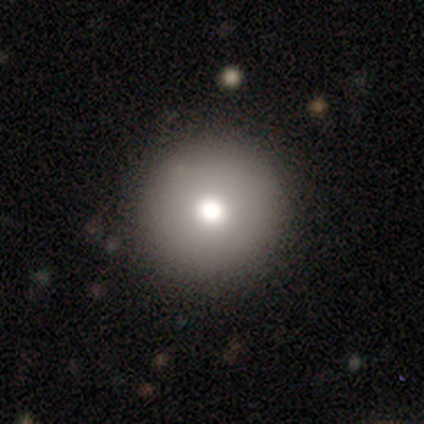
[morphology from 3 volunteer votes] Smooth or featured? smooth (67%)
How rounded? round (100%)
Merging? none (100%)